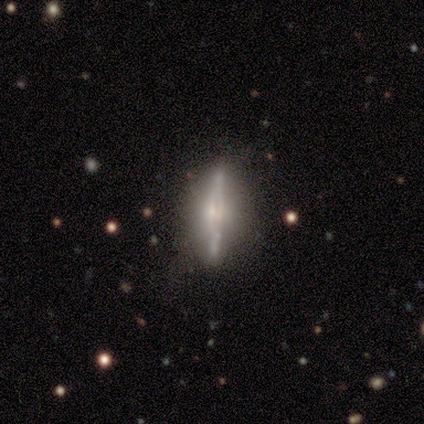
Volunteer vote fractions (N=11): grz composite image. It shows a featured or disk galaxy (82%) viewed edge-on (89%) with a boxy central bulge (38%, tied with rounded). Merging: none (60%).